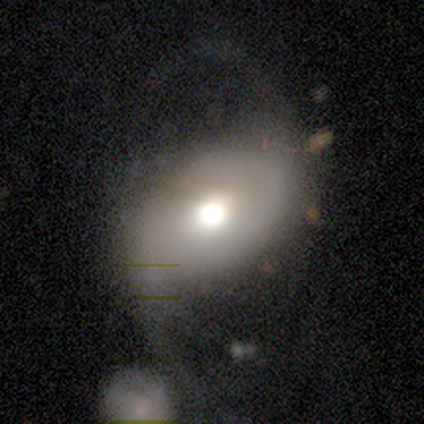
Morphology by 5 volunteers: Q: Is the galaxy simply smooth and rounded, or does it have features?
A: smooth — 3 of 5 (60%).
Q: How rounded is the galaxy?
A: in between — 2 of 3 (67%).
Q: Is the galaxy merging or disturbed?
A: none — 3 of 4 (75%).